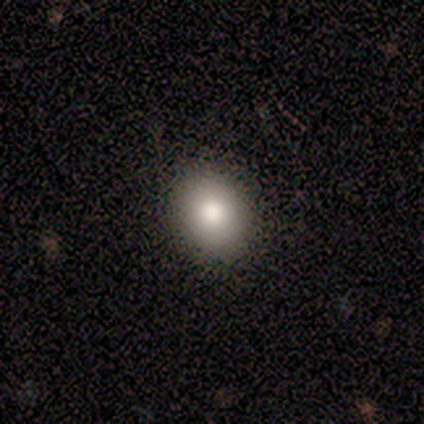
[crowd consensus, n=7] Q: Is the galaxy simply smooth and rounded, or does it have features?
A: smooth — 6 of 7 (86%).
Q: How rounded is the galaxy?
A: in between — 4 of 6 (67%).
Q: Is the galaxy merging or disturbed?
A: none — 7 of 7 (100%).